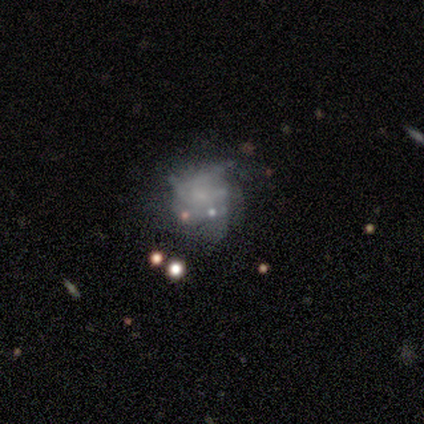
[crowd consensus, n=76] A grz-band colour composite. It shows a featured or disk galaxy (51%) with no bar (79%), tight (42%) spiral arms (62%) and no central bulge (64%). Merging: none (22%).